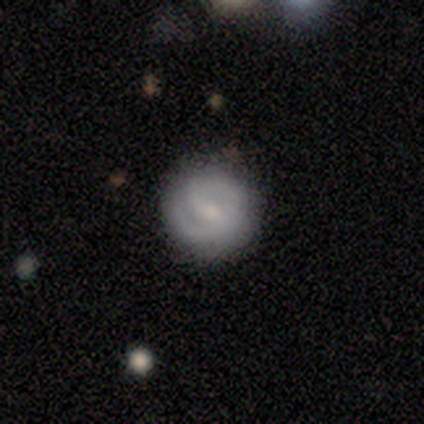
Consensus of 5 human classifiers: featured or disk 60%, smooth 40%, star or artifact 0%. Down the decision tree: edge-on disk — no (100%); bar — strong (33%, tied with weak and no); spiral arms — yes (67%); spiral arm count — 2 (100%); spiral winding — tight (50%, tied with medium); bulge size — moderate (67%); merging — none (80%).